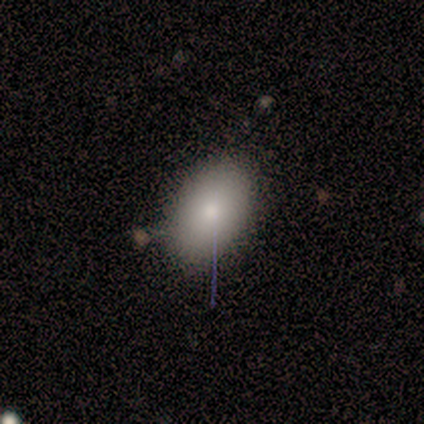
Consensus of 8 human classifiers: Morphology: type=smooth (88%); roundness=in between (100%); merging=none (86%).